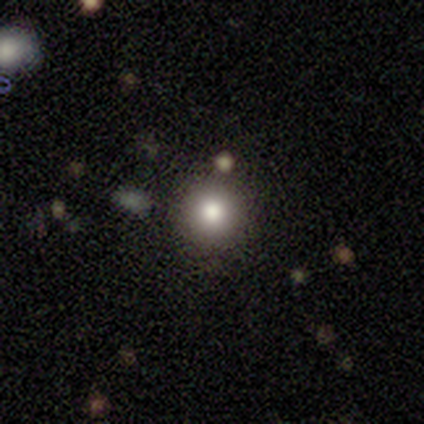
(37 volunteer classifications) Smooth or featured? 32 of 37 (86%) said smooth. How rounded? 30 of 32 (94%) said round. Merging? 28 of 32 (88%) said none.